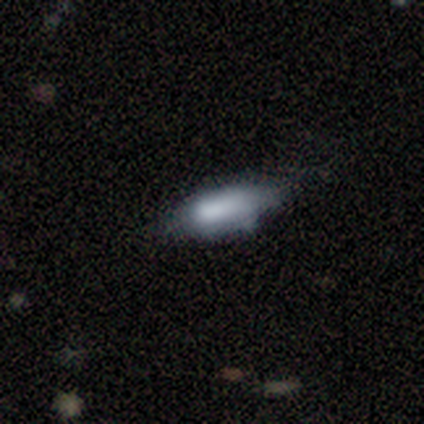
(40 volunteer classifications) smooth 62%, featured or disk 32%, star or artifact 5%. Down the decision tree: how rounded — in between (92%); merging — none (39%).